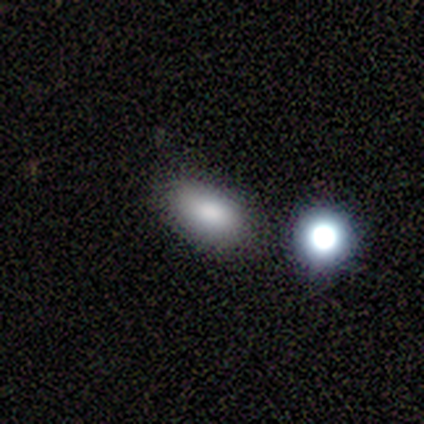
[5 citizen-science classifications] Smooth or featured? 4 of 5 (80%) said smooth. How rounded? 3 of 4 (75%) said in between. Merging? 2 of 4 (50%) said none.